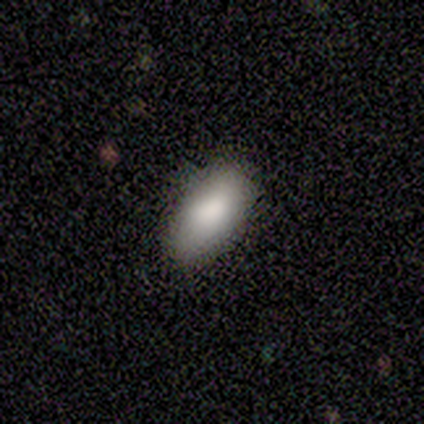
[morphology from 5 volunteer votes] smooth_or_featured: smooth (p=1.00)
how_rounded: in between (p=1.00)
merging: none (p=0.60) [alt: minor disturbance p=0.40]